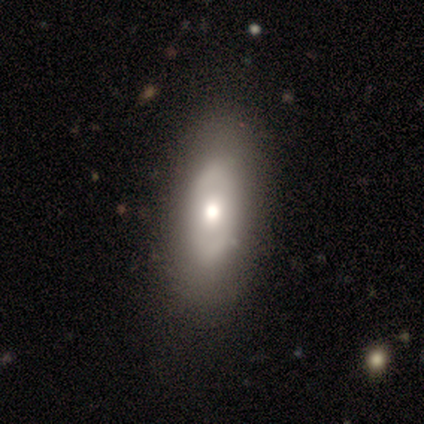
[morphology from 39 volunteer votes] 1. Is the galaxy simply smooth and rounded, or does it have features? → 49% featured or disk, 36% smooth, 15% star or artifact.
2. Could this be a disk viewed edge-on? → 74% no, 26% yes.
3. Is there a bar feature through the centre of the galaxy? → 79% no, 21% weak, 0% strong.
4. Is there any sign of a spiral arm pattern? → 71% no, 29% yes.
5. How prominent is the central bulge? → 64% moderate, 14% dominant, 14% small, 7% large, 0% none.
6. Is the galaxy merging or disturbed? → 79% none, 15% minor disturbance, 6% major disturbance, 0% merger.